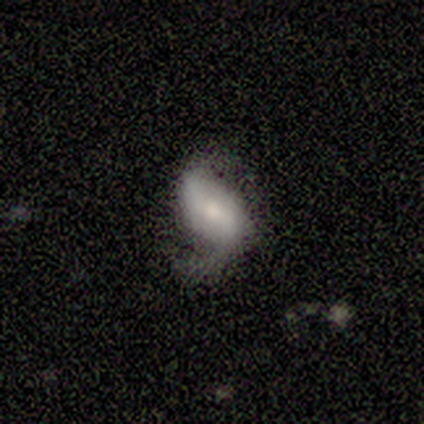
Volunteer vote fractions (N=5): This is likely a smooth galaxy (60%). How rounded: clearly in between (100%). Merging: likely major disturbance (60%).